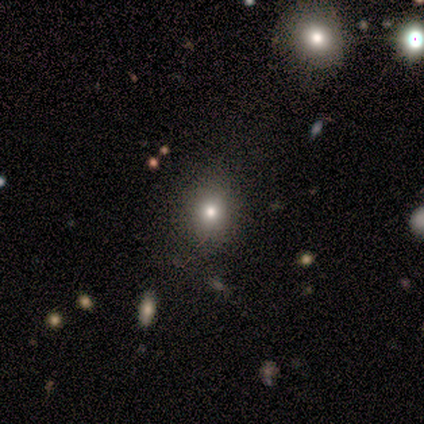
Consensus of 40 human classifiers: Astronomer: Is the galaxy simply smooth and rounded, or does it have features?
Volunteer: smooth — 72%.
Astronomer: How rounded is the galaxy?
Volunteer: round — 69%.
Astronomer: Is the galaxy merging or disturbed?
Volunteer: none — 70%.